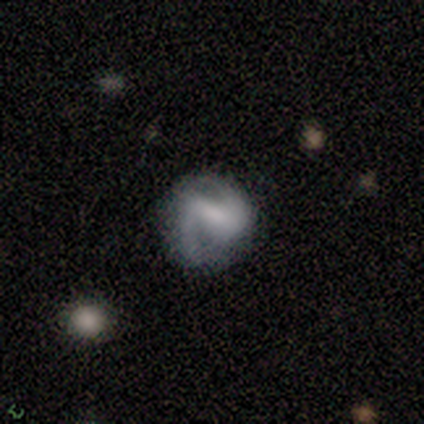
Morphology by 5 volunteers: This is clearly a featured or disk galaxy (80%). It is clearly not viewed edge-on (100%). Bar: possibly strong (50%, tied with weak). Spiral arm pattern: clearly yes (100%). Spiral arm count: clearly 2 (100%). Spiral winding: likely medium (75%). Central bulge: possibly small (50%, tied with none). Merging: marginally none (40%, tied with major disturbance).